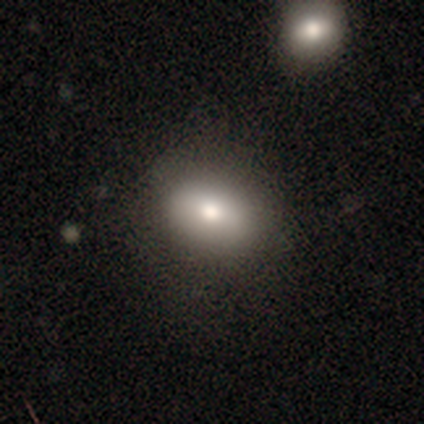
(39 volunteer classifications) smooth 79%, featured or disk 13%, star or artifact 8%. Down the decision tree: how rounded — in between (71%); merging — none (89%).